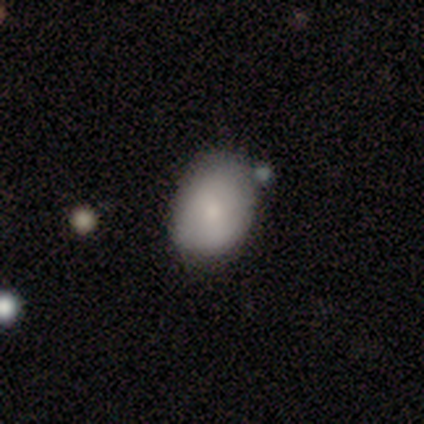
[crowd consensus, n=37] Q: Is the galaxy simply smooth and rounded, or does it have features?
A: smooth — 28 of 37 (76%).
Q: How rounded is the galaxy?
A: in between — 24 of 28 (86%).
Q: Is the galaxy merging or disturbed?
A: none — 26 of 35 (74%).